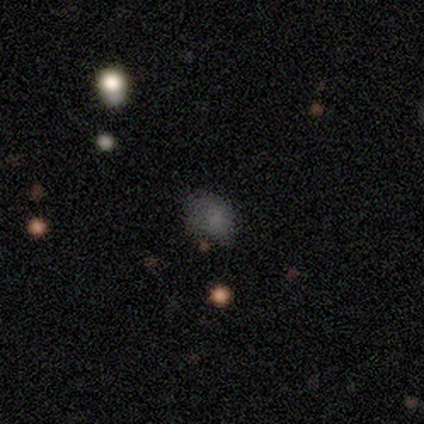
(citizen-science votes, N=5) Smooth or featured? smooth (80%)
How rounded? round (50%, tied with in between)
Merging? none (75%)